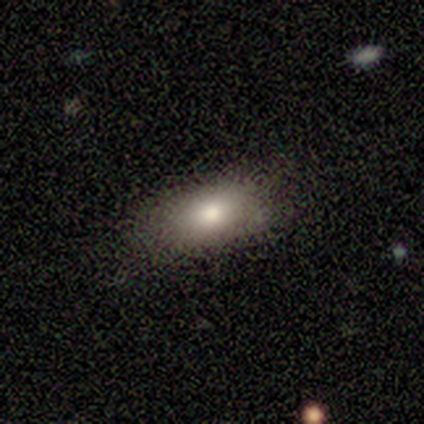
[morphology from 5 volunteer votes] Smooth or featured? smooth (80%)
How rounded? in between (75%)
Merging? none (100%)